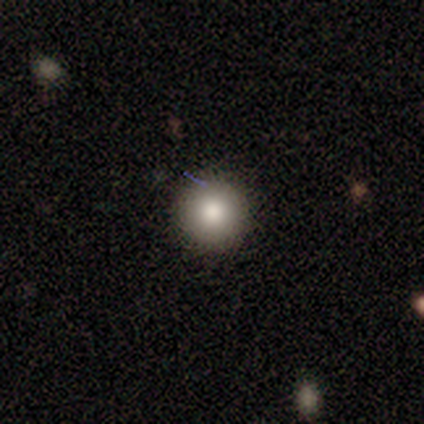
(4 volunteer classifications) Morphology: type=smooth (100%); roundness=round (100%); merging=none (100%).